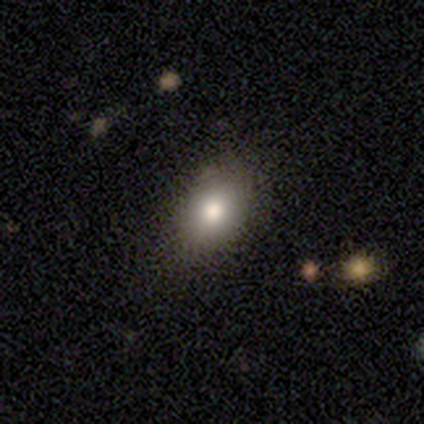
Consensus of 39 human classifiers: Smooth or featured? 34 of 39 (87%) said smooth. How rounded? 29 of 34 (85%) said in between. Merging? 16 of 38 (42%) said none.